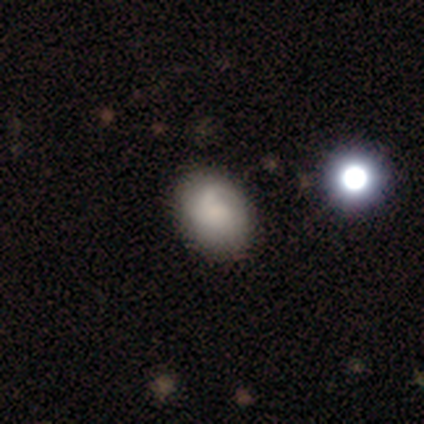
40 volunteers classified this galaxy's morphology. Smooth or featured: smooth — 68% (featured or disk — 22%)
How rounded: in between — 78% (round — 22%)
Merging: none — 50% (minor disturbance — 17%)